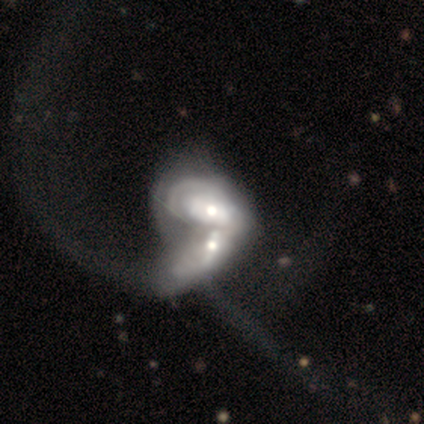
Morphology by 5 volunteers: A featured or disk galaxy (100%) with no bar (60%), no spiral arms (60%) and a moderate central bulge (100%). Merging: merger (80%).